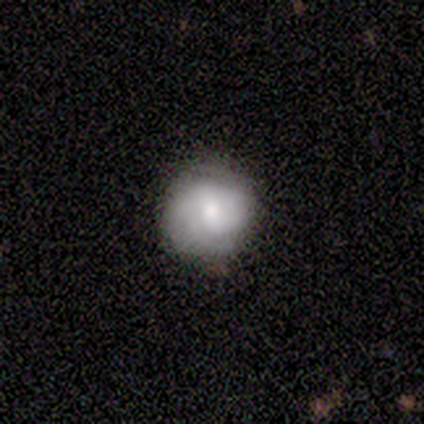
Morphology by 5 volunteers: Smooth or featured? 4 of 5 (80%) said smooth. How rounded? 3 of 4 (75%) said round. Merging? 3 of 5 (60%) said none.